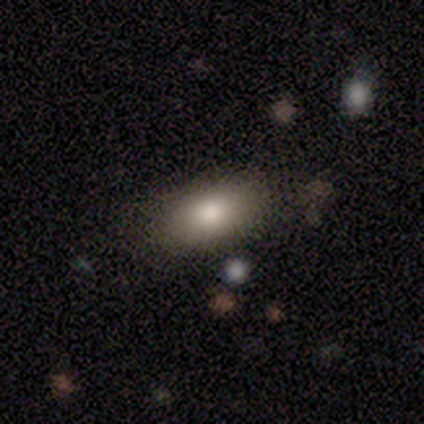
Overall: smooth (100%). How rounded: in between (100%). Merging: none (100%).